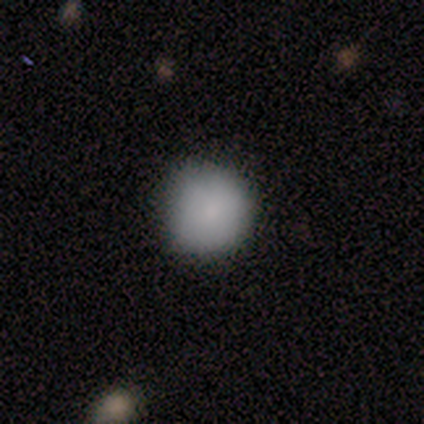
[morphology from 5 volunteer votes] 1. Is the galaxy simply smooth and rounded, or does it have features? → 100% smooth, 0% featured or disk, 0% star or artifact.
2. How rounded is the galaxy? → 100% round, 0% in between, 0% cigar-shaped.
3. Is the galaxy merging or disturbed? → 80% none, 20% minor disturbance, 0% major disturbance, 0% merger.